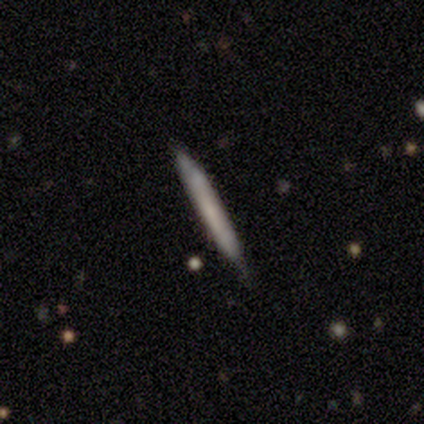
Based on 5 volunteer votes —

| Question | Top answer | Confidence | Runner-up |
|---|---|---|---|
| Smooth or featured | featured or disk | 60% | smooth (40%) |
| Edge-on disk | yes | 67% | no (33%) |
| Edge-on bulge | none | 100% | — |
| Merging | none | 80% | merger (20%) |